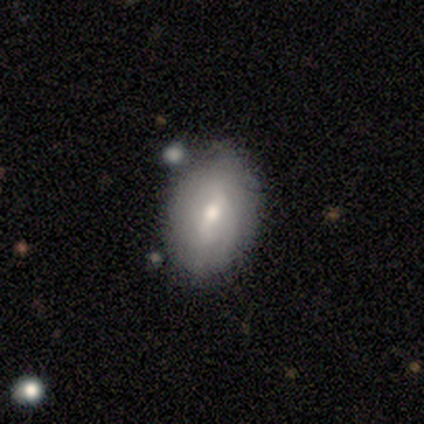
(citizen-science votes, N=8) smooth-or-featured: smooth: 50% (tied) | featured or disk: 50% (tied) | star or artifact: 0%
  how-rounded: in between: 100% | round: 0% | cigar-shaped: 0%
  merging: none: 75% | minor disturbance: 12% | merger: 12% | major disturbance: 0%